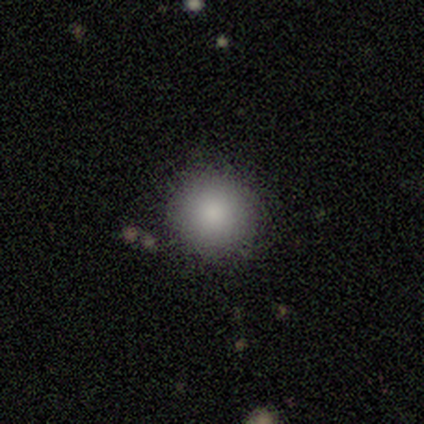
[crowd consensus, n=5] Smooth or featured: smooth — 100%
How rounded: round — 80% (in between — 20%)
Merging: none — 100%